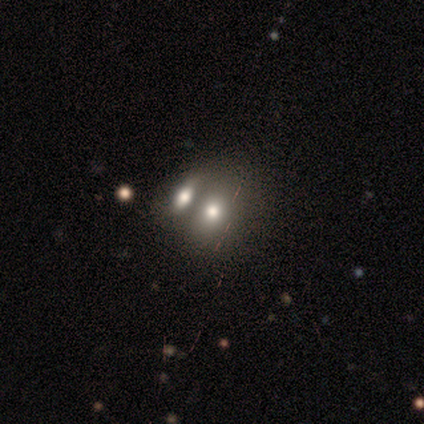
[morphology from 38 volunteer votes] type=smooth (63%); roundness=in between (67%); merging=merger (64%).